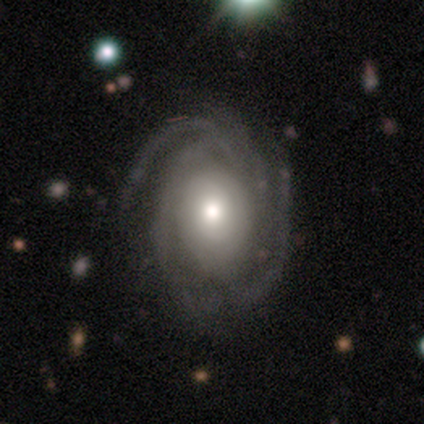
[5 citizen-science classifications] Smooth or featured: featured or disk — 60% (smooth — 40%)
Edge-on disk: no — 100%
Bar: no — 67% (weak — 33%)
Spiral arms: yes — 100%
Spiral winding: tight — 100%
Spiral arm count: 4 — 67% (2 — 33%)
Bulge size: large — 33% (tied with moderate — 33%; small — 33%)
Merging: none — 100%